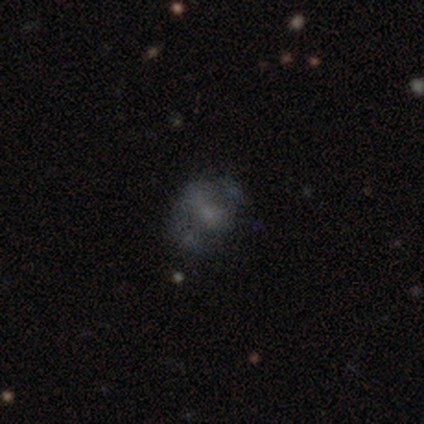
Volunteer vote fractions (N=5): Smooth or featured? 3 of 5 (60%) said star or artifact.